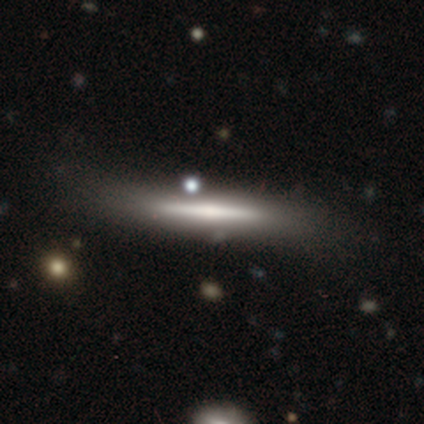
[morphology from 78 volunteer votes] Volunteers were most divided on "merging": none: 26%, minor disturbance: 19%, major disturbance: 5%, merger: 3%. More confident: edge-on disk — yes (95%); edge-on bulge — none (53%); smooth or featured — featured or disk (51%).